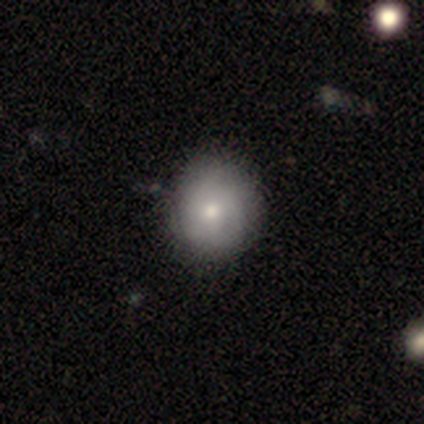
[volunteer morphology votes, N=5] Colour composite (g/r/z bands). It shows a smooth galaxy with no disk features (80%) that is round (100%). Merging: none (60%).